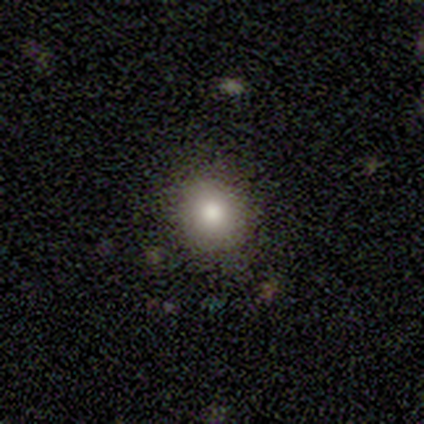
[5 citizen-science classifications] Q: Smooth or featured?
A: smooth (100%)
Q: How rounded?
A: round (80%); runner-up: in between (20%)
Q: Merging?
A: none (80%); runner-up: minor disturbance (20%)